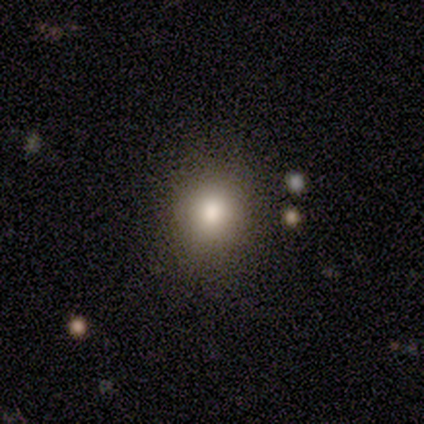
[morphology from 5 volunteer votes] smooth_or_featured: smooth (p=0.60) [alt: featured or disk p=0.20]
how_rounded: round (p=1.00)
merging: none (p=1.00)